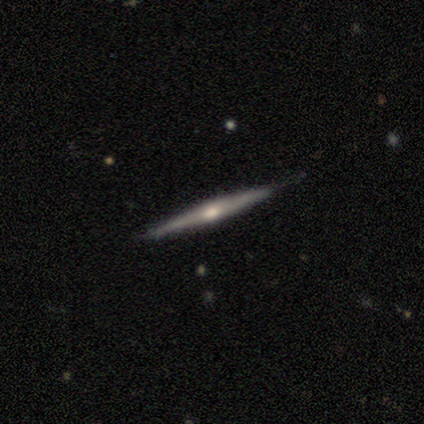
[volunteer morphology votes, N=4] This is clearly a featured or disk galaxy (100%). It is clearly viewed edge-on (100%). Edge-on bulge: clearly rounded (100%). Merging: likely none (75%).